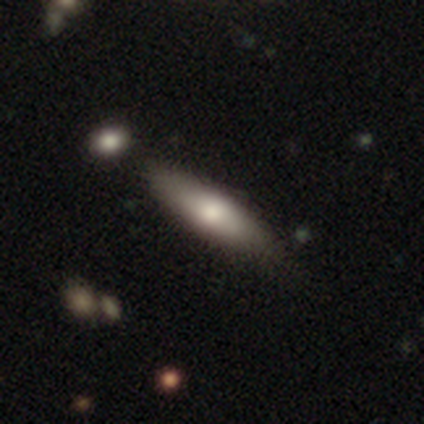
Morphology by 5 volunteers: smooth_or_featured: smooth (p=0.60) [alt: featured or disk p=0.40]
how_rounded: cigar-shaped (p=0.67) [alt: in between p=0.33]
merging: none (p=0.60) [alt: minor disturbance p=0.40]